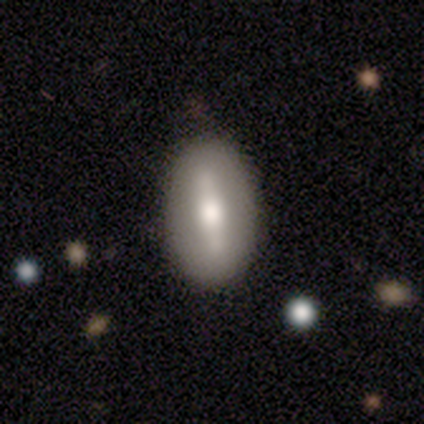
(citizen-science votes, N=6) smooth_or_featured: smooth (p=0.67) [alt: featured or disk p=0.33]
how_rounded: in between (p=1.00)
merging: none (p=0.83) [alt: minor disturbance p=0.17]